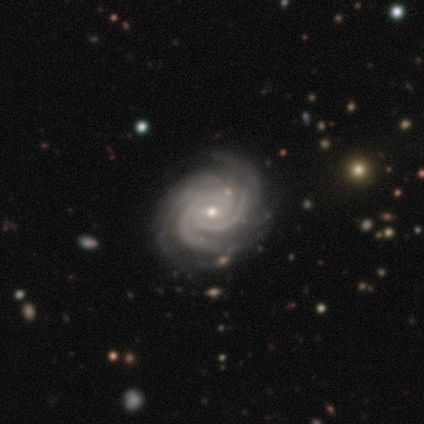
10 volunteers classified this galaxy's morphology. Q: Smooth or featured?
A: featured or disk (90%); runner-up: smooth (10%)
Q: Edge-on disk?
A: no (89%); runner-up: yes (11%)
Q: Bar?
A: no (62%); runner-up: weak (38%)
Q: Spiral arms?
A: yes (100%)
Q: Spiral winding?
A: tight (88%); runner-up: medium (12%)
Q: Spiral arm count?
A: 3 (75%); runner-up: 2 (12%)
Q: Bulge size?
A: small (75%); runner-up: moderate (25%)
Q: Merging?
A: none (80%); runner-up: minor disturbance (20%)